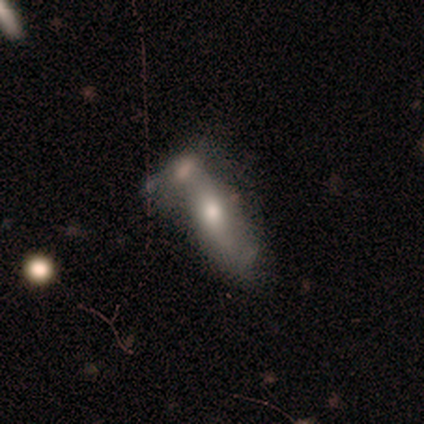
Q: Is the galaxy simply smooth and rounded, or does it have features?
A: smooth — 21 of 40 (52%).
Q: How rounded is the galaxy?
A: in between — 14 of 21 (67%).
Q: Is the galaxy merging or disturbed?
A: merger — 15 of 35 (43%).